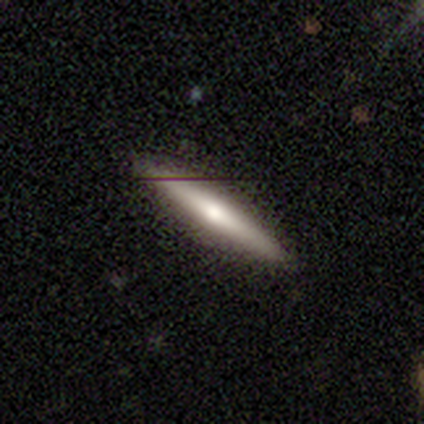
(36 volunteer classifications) smooth_or_featured: featured or disk (p=0.53) [alt: smooth p=0.44]
disk_edge_on: yes (p=0.95) [alt: no p=0.05]
edge_on_bulge: rounded (p=0.78) [alt: none p=0.17]
merging: none (p=0.86) [alt: minor disturbance p=0.11]